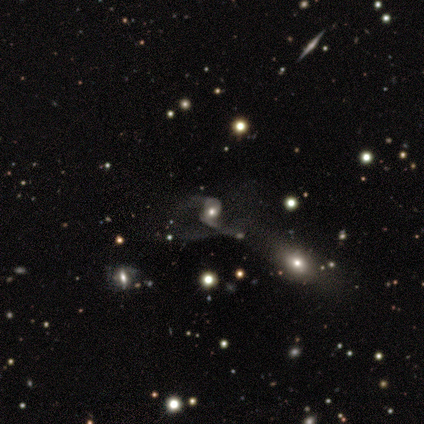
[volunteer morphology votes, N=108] Overall: featured or disk (75%). Edge-on disk: no (98%). Bar: no (70%). Spiral arms: yes (87%). Spiral arm count: 2 (84%). Spiral winding: loose (71%). Bulge size: moderate (61%). Merging: major disturbance (44%; merger 29%).